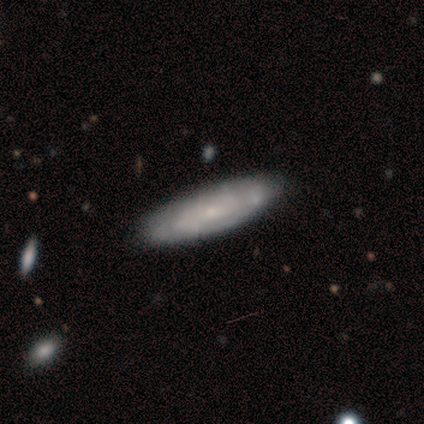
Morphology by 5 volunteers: Smooth or featured? featured or disk (60%)
Edge-on disk? no (67%)
Bar? no (100%)
Spiral arms? yes (100%)
Spiral winding? tight (100%)
Spiral arm count? can't tell (100%)
Bulge size? small (100%)
Merging? none (100%)